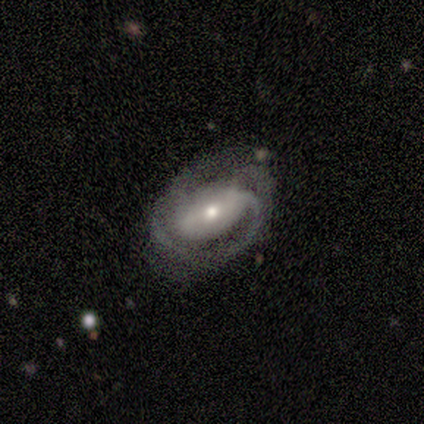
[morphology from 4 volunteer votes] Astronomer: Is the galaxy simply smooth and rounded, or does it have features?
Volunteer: featured or disk — 100%.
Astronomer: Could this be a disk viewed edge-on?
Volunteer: no — 100%.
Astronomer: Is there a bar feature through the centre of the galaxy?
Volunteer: no — 75%.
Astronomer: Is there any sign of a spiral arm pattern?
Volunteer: yes — 100%.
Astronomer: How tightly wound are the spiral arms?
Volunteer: tight — 50%, tied with medium at 50%.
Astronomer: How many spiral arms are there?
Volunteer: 3 — 75%.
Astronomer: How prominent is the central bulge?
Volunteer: moderate — 75%.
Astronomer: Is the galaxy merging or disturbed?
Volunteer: none — 75%.